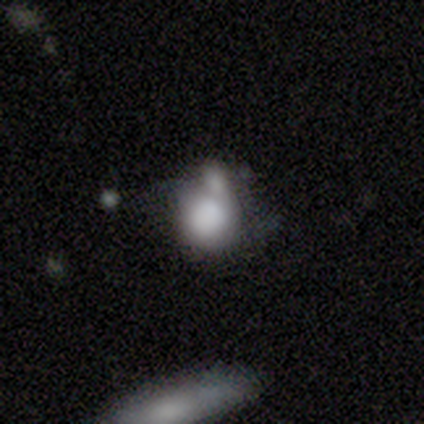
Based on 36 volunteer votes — Overall: smooth (86%). How rounded: round (77%). Merging: merger (50%).